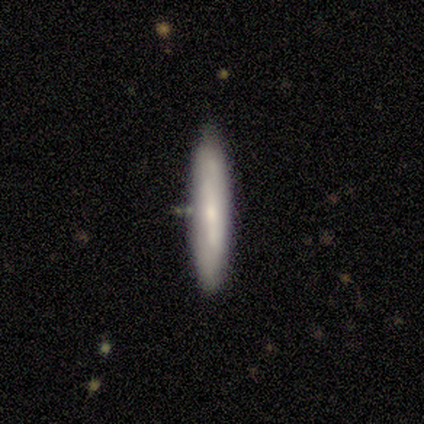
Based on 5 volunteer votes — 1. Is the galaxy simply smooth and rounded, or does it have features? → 100% smooth, 0% featured or disk, 0% star or artifact.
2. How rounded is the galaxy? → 100% cigar-shaped, 0% round, 0% in between.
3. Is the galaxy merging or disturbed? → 80% none, 20% minor disturbance, 0% major disturbance, 0% merger.